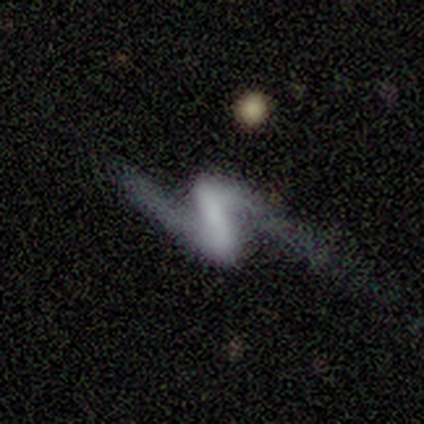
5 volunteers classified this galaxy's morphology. Overall: featured or disk (100%). Edge-on disk: no (100%). Bar: strong (80%). Spiral arms: yes (100%). Spiral arm count: 2 (100%). Spiral winding: loose (100%). Bulge size: none (100%). Merging: none (60%; major disturbance 20%).